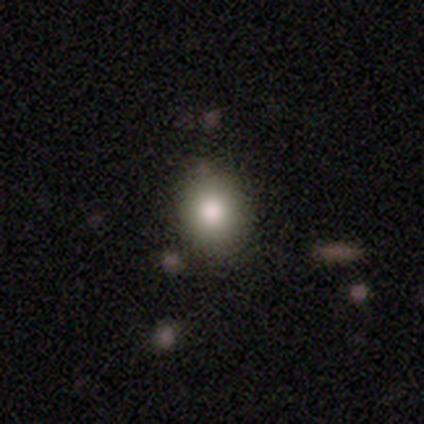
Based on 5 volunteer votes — Morphology: type=smooth (100%); roundness=in between (60%); merging=none (80%).